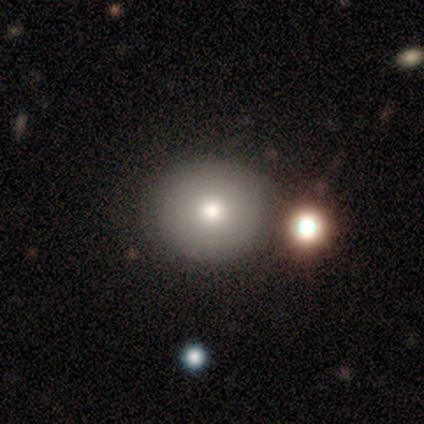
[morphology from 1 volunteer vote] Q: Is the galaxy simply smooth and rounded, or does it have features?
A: featured or disk — 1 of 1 (100%).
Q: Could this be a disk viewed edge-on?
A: no — 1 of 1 (100%).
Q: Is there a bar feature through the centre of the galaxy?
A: no — 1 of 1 (100%).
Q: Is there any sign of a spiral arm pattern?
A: no — 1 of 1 (100%).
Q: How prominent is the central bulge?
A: moderate — 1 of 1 (100%).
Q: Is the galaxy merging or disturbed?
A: none — 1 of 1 (100%).